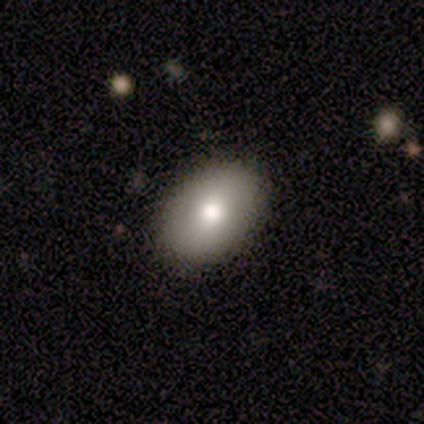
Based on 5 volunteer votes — A featured or disk galaxy (60%) with no bar (67%), no spiral arms (100%) and a moderate central bulge (100%). Merging: none (100%).